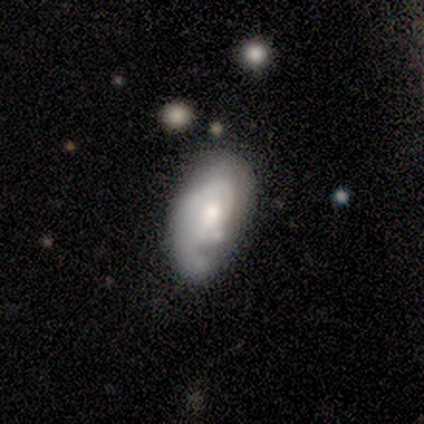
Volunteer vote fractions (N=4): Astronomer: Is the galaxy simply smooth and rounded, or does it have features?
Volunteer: featured or disk — 75%.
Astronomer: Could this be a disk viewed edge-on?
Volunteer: no — 100%.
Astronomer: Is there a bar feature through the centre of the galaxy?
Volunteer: weak — 67%.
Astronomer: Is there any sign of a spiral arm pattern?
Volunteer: yes — 100%.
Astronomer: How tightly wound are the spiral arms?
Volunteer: tight — 67%.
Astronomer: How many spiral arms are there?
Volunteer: can't tell — 100%.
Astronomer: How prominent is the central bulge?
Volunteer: large — 33%, tied with moderate and small at 33%.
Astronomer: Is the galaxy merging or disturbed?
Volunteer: major disturbance — 67%.